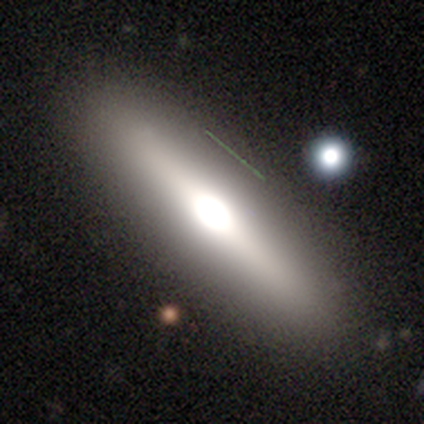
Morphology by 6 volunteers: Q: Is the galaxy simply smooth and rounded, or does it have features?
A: smooth — 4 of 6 (67%).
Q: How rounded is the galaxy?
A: in between — 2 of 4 (50%, tied with cigar-shaped).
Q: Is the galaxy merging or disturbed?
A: none — 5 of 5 (100%).